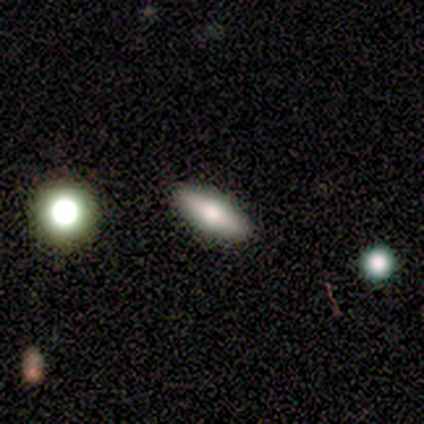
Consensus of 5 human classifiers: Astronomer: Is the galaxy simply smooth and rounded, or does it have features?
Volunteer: smooth — 80%.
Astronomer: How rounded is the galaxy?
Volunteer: in between — 75%.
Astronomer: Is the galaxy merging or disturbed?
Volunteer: none — 100%.